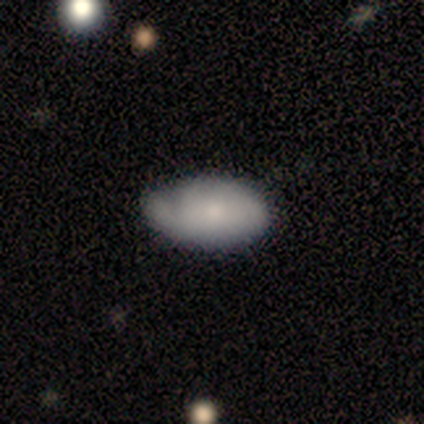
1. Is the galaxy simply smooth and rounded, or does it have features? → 60% smooth, 40% featured or disk, 0% star or artifact.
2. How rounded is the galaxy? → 100% in between, 0% round, 0% cigar-shaped.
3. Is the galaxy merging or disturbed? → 60% none, 20% minor disturbance, 20% major disturbance, 0% merger.